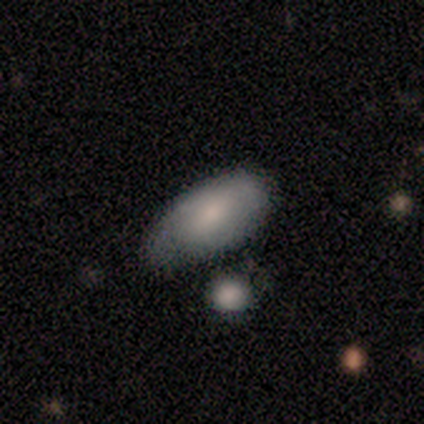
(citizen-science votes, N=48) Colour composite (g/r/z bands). It shows a smooth galaxy with no disk features (71%) that is in between round and cigar-shaped (94%). Merging: none (52%).